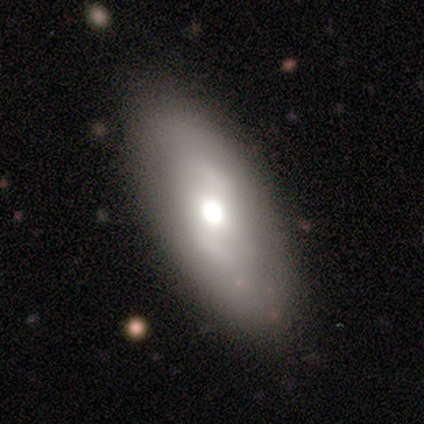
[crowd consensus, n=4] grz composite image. It shows a smooth galaxy with no disk features (75%) that is cigar-shaped (67%). Merging: none (100%).